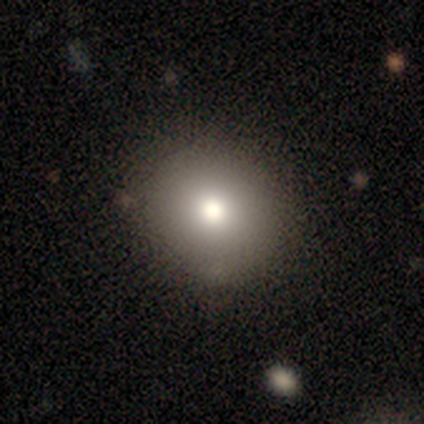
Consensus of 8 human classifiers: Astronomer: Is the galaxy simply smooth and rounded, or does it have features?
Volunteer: smooth — 75%.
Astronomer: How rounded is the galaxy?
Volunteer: round — 67%.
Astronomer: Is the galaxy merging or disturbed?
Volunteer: none — 88%.